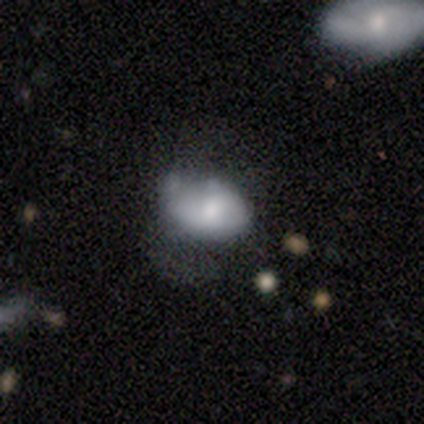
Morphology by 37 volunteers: Smooth or featured?
  - smooth: 59% *
  - featured or disk: 32%
  - star or artifact: 8%
How rounded?
  - in between: 95% *
  - round: 5%
  - cigar-shaped: 0%
Merging?
  - none: 35% *
  - minor disturbance: 24%
  - major disturbance: 12%
  - merger: 12%